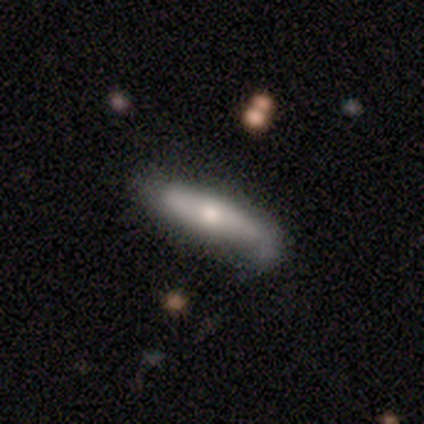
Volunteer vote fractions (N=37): Smooth or featured? 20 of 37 (54%) said smooth. How rounded? 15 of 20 (75%) said cigar-shaped. Merging? 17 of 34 (50%) said none.